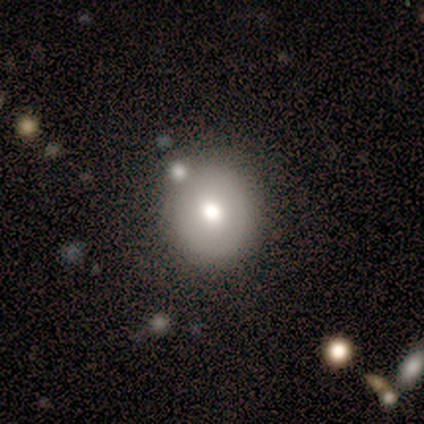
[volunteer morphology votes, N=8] This appears to be a smooth galaxy with no disk features (88%) that is round (86%). Merging: none (75%).